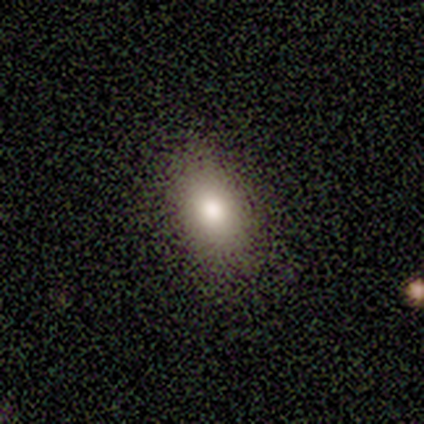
smooth 80%, featured or disk 20%, star or artifact 0%. Down the decision tree: how rounded — in between (100%); merging — none (80%).